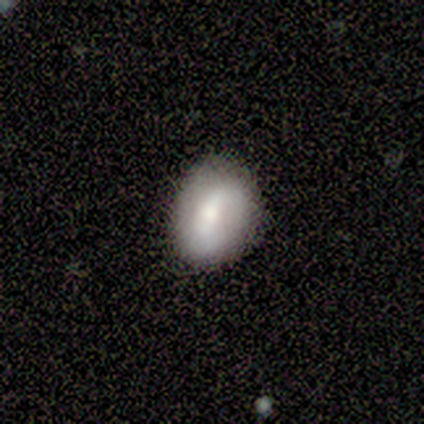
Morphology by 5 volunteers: smooth-or-featured: smooth: 60% | featured or disk: 40% | star or artifact: 0%
  how-rounded: in between: 67% | round: 33% | cigar-shaped: 0%
  merging: none: 80% | minor disturbance: 20% | major disturbance: 0% | merger: 0%